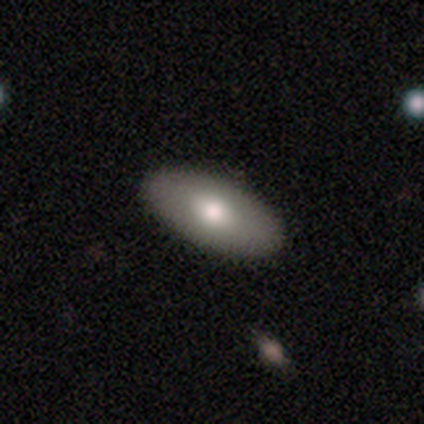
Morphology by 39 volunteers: This appears to be a smooth galaxy with no disk features (62%) that is in between round and cigar-shaped (100%). Merging: none (65%).